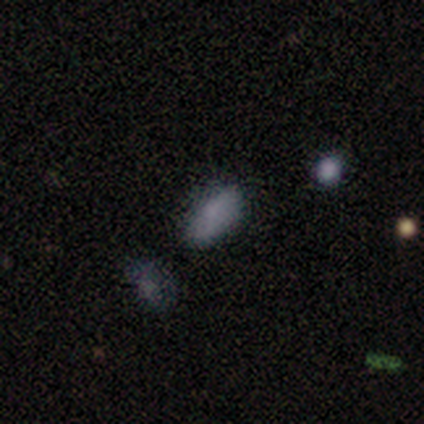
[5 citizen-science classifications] Morphology: type=smooth (80%); roundness=in between (100%); merging=none (75%).